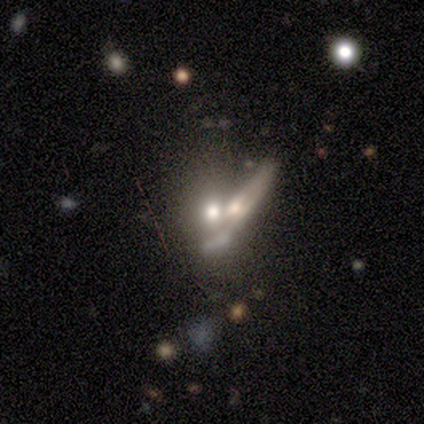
Smooth or featured?
  - featured or disk: 80% *
  - smooth: 20%
  - star or artifact: 0%
Edge-on disk?
  - no: 75% *
  - yes: 25%
Bar?
  - no: 67% *
  - strong: 33%
  - weak: 0%
Spiral arms?
  - yes: 67% *
  - no: 33%
Spiral winding?
  - loose: 100% *
  - tight: 0%
  - medium: 0%
Spiral arm count?
  - 1: 50% * (tied)
  - can't tell: 50% * (tied)
  - 2: 0%
  - 3: 0%
  - 4: 0%
  - more than 4: 0%
Bulge size?
  - moderate: 67% *
  - small: 33%
  - dominant: 0%
  - large: 0%
  - none: 0%
Merging?
  - merger: 60% *
  - none: 40%
  - minor disturbance: 0%
  - major disturbance: 0%